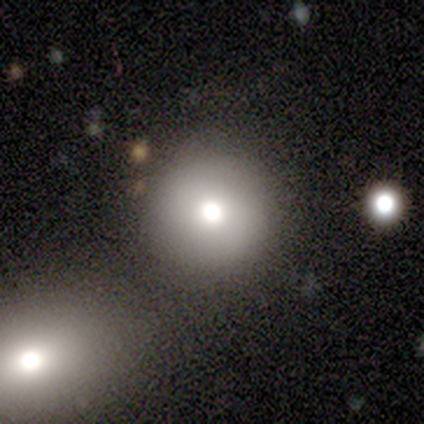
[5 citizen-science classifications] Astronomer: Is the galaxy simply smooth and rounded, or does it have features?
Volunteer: star or artifact — 60%.